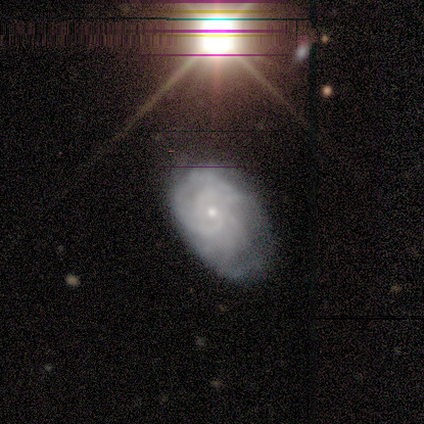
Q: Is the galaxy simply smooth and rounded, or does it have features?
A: featured or disk — 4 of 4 (100%).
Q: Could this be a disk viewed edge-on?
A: no — 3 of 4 (75%).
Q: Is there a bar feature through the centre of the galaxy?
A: no — 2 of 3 (67%).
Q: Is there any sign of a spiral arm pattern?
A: yes — 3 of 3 (100%).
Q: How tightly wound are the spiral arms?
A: medium — 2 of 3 (67%).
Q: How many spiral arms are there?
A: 2 — 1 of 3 (33%, tied with 3 and can't tell).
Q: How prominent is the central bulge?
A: small — 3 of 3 (100%).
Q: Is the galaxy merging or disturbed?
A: none — 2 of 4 (50%, tied with minor disturbance).